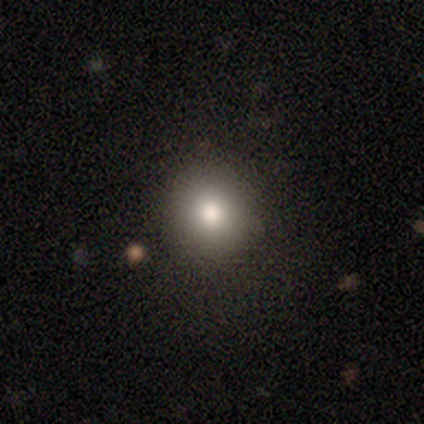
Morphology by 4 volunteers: A smooth galaxy with no disk features (100%) that is round (100%).

Vote fractions:
- Smooth or featured? smooth: 100% / featured or disk: 0% / star or artifact: 0%
- How rounded? round: 100% / in between: 0% / cigar-shaped: 0%
- Merging? none: 100% / minor disturbance: 0% / major disturbance: 0% / merger: 0%